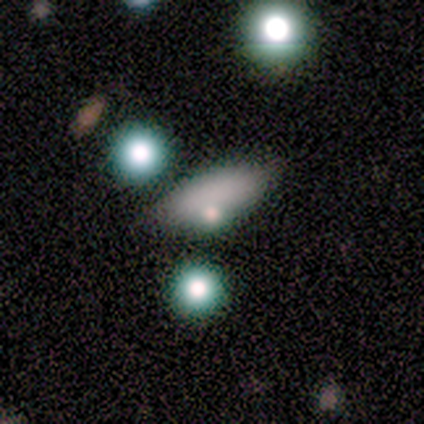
A smooth galaxy with no disk features (90%) that is in between round and cigar-shaped (67%). Merging: none (100%).